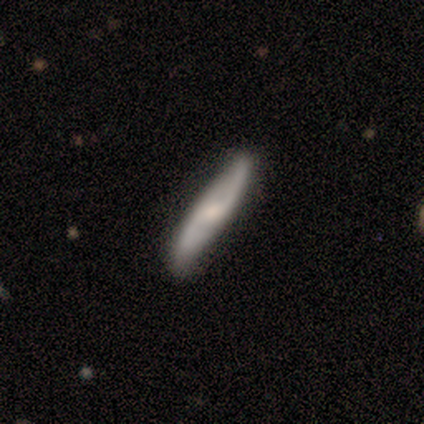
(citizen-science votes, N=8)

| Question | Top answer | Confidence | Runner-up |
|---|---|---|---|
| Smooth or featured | featured or disk | 75% | smooth (25%) |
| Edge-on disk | no | 67% | yes (33%) |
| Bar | weak | 50% | strong (25%) |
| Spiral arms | yes | 100% | — |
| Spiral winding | medium | 50% | tied: loose (50%) |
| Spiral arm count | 2 | 100% | — |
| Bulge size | small | 50% | moderate (25%) |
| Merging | none | 62% | minor disturbance (12%) |